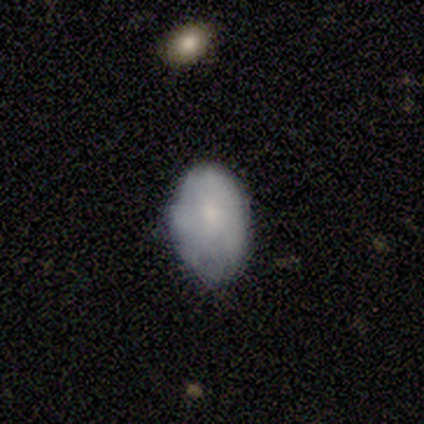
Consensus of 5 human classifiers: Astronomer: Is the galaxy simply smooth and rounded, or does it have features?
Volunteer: featured or disk — 60% (runner-up: smooth, 40%).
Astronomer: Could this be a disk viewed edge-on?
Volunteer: no — 100%.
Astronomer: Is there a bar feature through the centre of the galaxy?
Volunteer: no — 100%.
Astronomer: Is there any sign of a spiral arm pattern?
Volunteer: no — 100%.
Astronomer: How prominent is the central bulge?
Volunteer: small — 67%.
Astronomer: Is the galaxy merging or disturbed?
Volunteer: none — 80%.